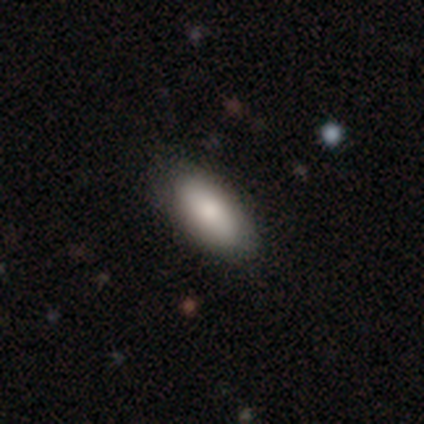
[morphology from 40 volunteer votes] smooth_or_featured: smooth (p=0.80) [alt: featured or disk p=0.20]
how_rounded: in between (p=1.00)
merging: none (p=0.57) [alt: merger p=0.05]